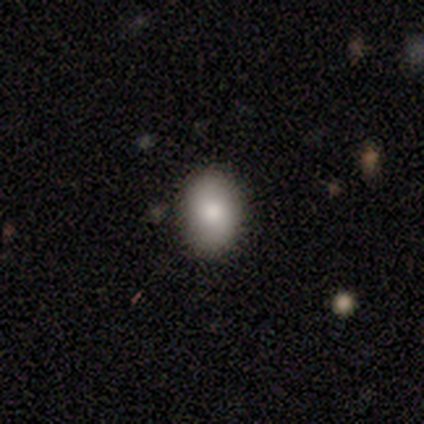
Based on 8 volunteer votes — Smooth or featured?
  - smooth: 62% *
  - star or artifact: 25%
  - featured or disk: 12%
How rounded?
  - in between: 80% *
  - round: 20%
  - cigar-shaped: 0%
Merging?
  - none: 100% *
  - minor disturbance: 0%
  - major disturbance: 0%
  - merger: 0%